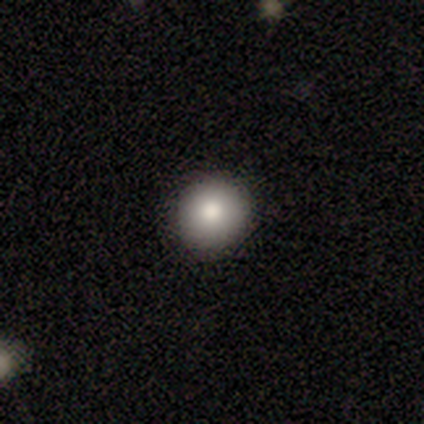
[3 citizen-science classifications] A smooth galaxy with no disk features (67%) that is round (50%, tied with in between).

Vote fractions:
- Smooth or featured? smooth: 67% / featured or disk: 33% / star or artifact: 0%
- How rounded? round: 50% (tied) / in between: 50% (tied) / cigar-shaped: 0%
- Merging? none: 100% / minor disturbance: 0% / major disturbance: 0% / merger: 0%